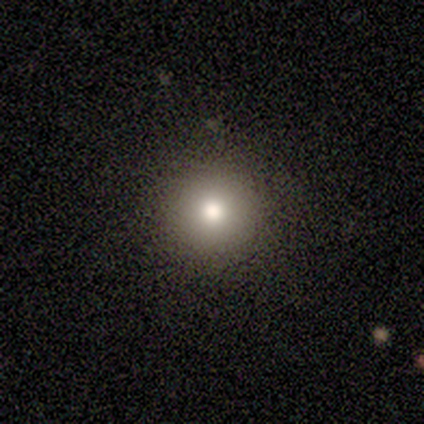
Q: Smooth or featured?
A: smooth (80%); runner-up: star or artifact (20%)
Q: How rounded?
A: round (100%)
Q: Merging?
A: none (100%)